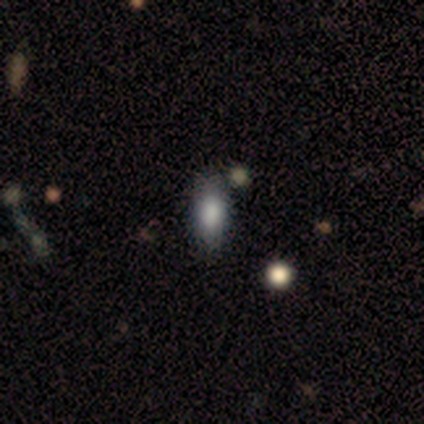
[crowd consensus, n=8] This appears to be a smooth galaxy with no disk features (75%) that is in between round and cigar-shaped (83%). Merging: none (71%).